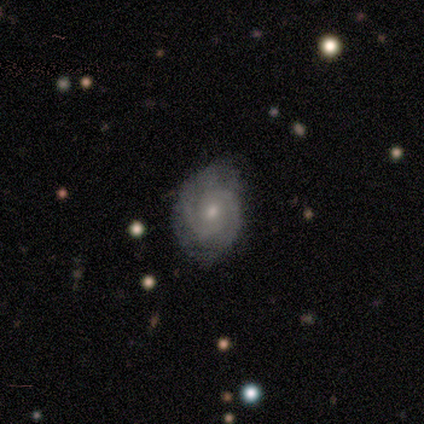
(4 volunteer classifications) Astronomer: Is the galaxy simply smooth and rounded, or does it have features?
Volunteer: featured or disk — 75%.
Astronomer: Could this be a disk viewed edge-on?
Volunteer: no — 100%.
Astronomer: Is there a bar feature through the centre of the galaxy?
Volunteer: weak — 67%.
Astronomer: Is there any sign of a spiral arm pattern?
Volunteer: yes — 100%.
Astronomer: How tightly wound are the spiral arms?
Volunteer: tight — 100%.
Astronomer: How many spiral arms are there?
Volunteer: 2 — 100%.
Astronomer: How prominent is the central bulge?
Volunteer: moderate — 67%.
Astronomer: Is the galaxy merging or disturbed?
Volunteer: none — 67%.